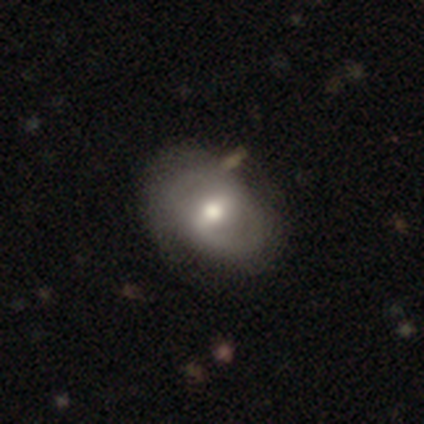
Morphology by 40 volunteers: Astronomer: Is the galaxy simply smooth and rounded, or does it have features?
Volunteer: featured or disk — 60%.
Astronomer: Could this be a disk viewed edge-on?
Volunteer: no — 100%.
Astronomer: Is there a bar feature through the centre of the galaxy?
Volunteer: weak — 58%.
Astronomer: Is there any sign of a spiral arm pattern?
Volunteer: no — 54% (runner-up: yes, 46%).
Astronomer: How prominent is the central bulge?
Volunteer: moderate — 71%.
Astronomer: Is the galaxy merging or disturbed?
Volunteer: none — 32% (runner-up: minor disturbance, 11%).